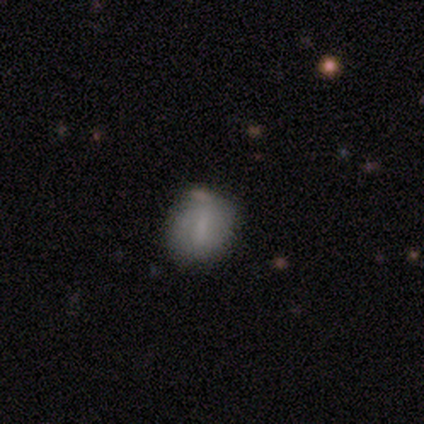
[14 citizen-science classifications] Smooth or featured?
  - smooth: 64% *
  - featured or disk: 21%
  - star or artifact: 14%
How rounded?
  - in between: 56% *
  - round: 44%
  - cigar-shaped: 0%
Merging?
  - none: 75% *
  - minor disturbance: 17%
  - major disturbance: 8%
  - merger: 0%